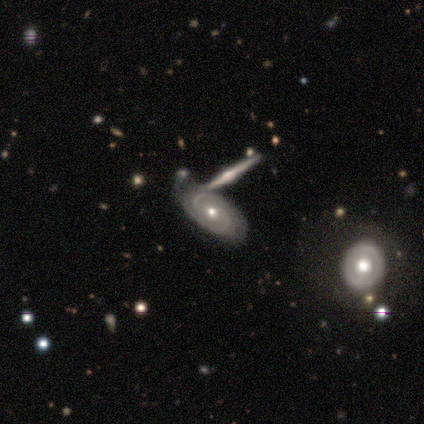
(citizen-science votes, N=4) This appears to be a featured or disk galaxy (75%) with no bar (100%), 2 (67%) medium (67%) spiral arms (100%) and a moderate central bulge (67%). Merging: none (67%).